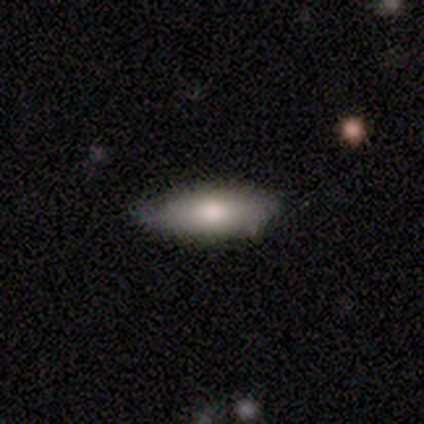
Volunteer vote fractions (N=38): Smooth or featured: smooth — 74% (featured or disk — 21%)
How rounded: in between — 64% (cigar-shaped — 36%)
Merging: none — 69% (minor disturbance — 28%)